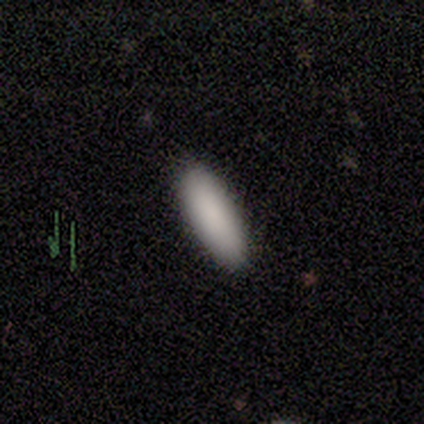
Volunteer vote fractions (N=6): A smooth galaxy with no disk features (100%) that is in between round and cigar-shaped (83%).

Vote fractions:
- Smooth or featured? smooth: 100% / featured or disk: 0% / star or artifact: 0%
- How rounded? in between: 83% / cigar-shaped: 17% / round: 0%
- Merging? none: 100% / minor disturbance: 0% / major disturbance: 0% / merger: 0%